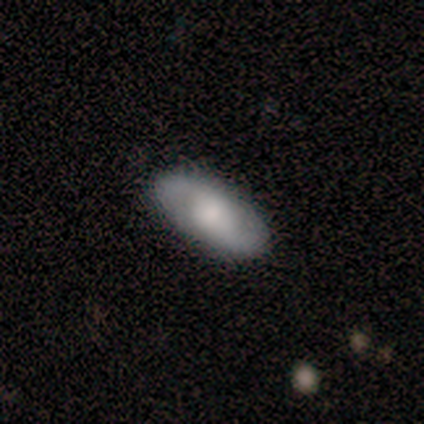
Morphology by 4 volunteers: This is possibly a smooth galaxy (50%, tied with featured or disk). How rounded: clearly in between (100%). Merging: possibly none (50%, tied with minor disturbance).